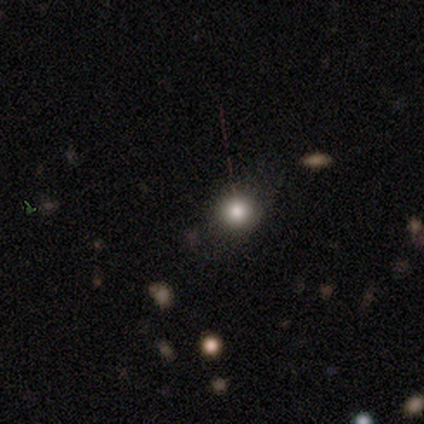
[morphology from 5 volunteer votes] smooth 60%, featured or disk 40%, star or artifact 0%. Down the decision tree: how rounded — round (100%); merging — none (80%).